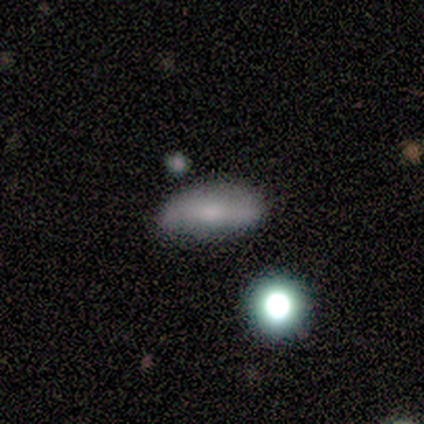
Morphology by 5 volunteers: smooth 80%, featured or disk 20%, star or artifact 0%. Down the decision tree: how rounded — in between (50%, tied with cigar-shaped); merging — none (100%).